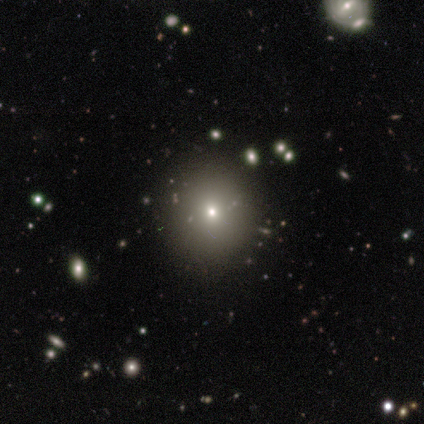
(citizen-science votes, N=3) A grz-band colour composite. It shows a smooth galaxy with no disk features (67%) that is round (50%, tied with in between). Merging: none (100%).